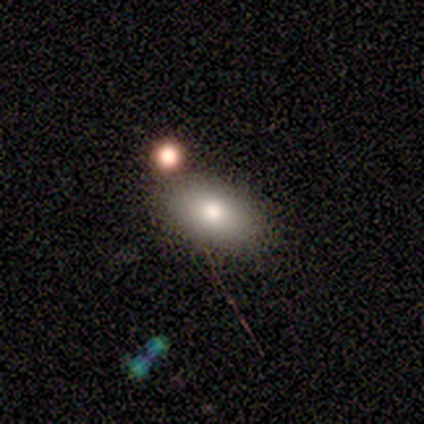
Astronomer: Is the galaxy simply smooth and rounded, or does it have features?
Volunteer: smooth — 100%.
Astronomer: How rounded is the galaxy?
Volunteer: in between — 100%.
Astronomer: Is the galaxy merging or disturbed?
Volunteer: none — 100%.